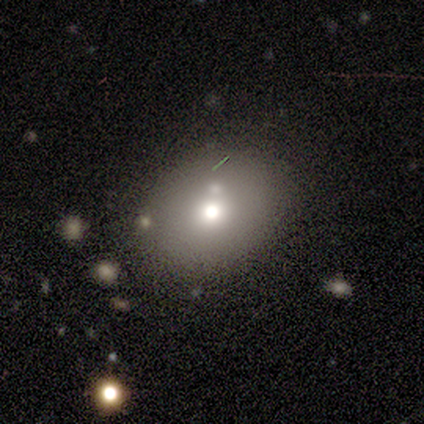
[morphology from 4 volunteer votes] This is possibly a featured or disk galaxy (50%). It is clearly not viewed edge-on (100%). Bar: clearly no (100%). Spiral arm pattern: clearly no (100%). Central bulge: possibly moderate (50%, tied with small). Merging: clearly none (100%).